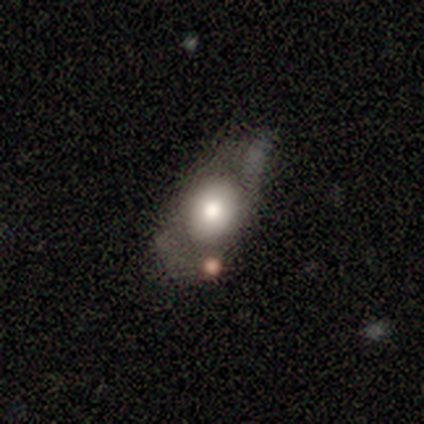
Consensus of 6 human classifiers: Morphology: type=smooth (67%); roundness=in between (100%); merging=none (33%, tied with merger).